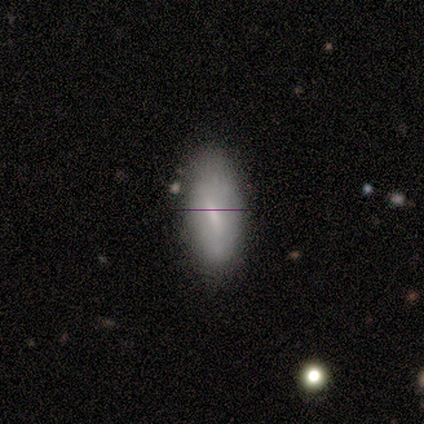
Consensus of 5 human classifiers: Smooth or featured? smooth (80%)
How rounded? in between (100%)
Merging? none (80%)